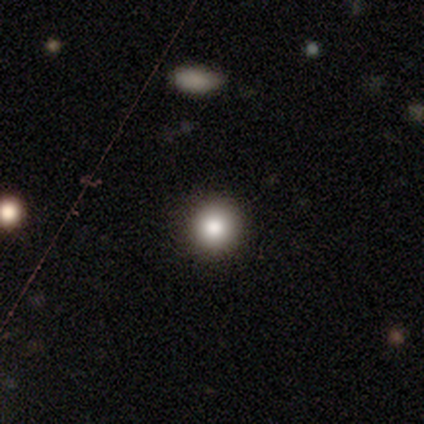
Smooth or featured: smooth — 100%
How rounded: round — 100%
Merging: none — 100%